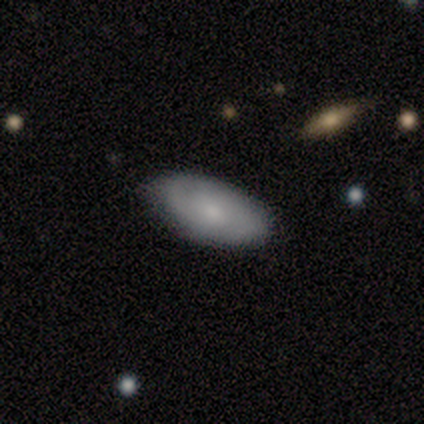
A smooth galaxy with no disk features (100%) that is in between round and cigar-shaped (100%).

Vote fractions:
- Smooth or featured? smooth: 100% / featured or disk: 0% / star or artifact: 0%
- How rounded? in between: 100% / round: 0% / cigar-shaped: 0%
- Merging? none: 75% / merger: 25% / minor disturbance: 0% / major disturbance: 0%